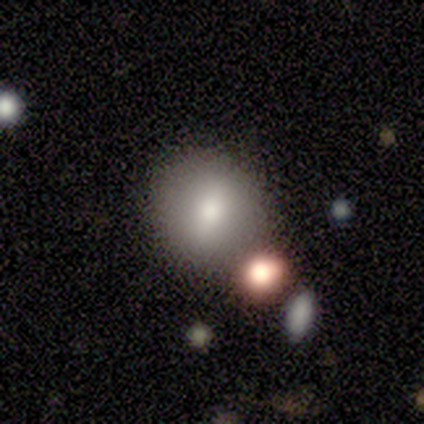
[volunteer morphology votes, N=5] Smooth or featured?
  - smooth: 60% *
  - featured or disk: 20%
  - star or artifact: 20%
How rounded?
  - round: 100% *
  - in between: 0%
  - cigar-shaped: 0%
Merging?
  - none: 100% *
  - minor disturbance: 0%
  - major disturbance: 0%
  - merger: 0%